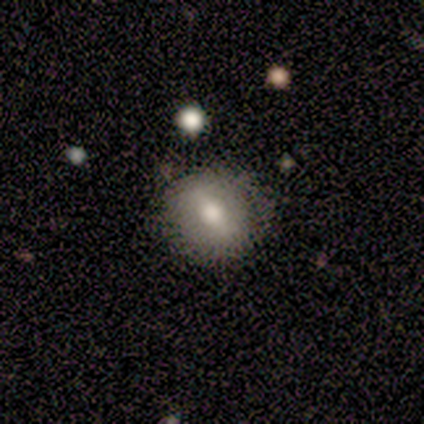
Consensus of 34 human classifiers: A smooth galaxy with no disk features (56%) that is round (79%). Merging: none (84%).